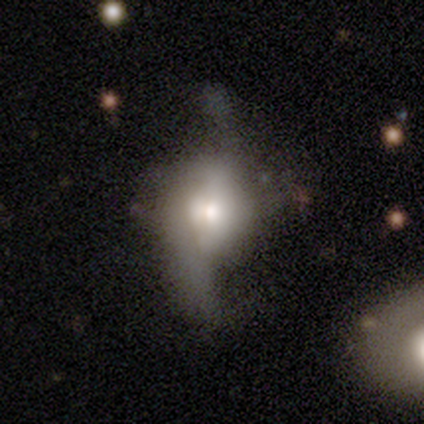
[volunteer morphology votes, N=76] This is likely a featured or disk galaxy (67%). It is clearly not viewed edge-on (80%). Bar: likely no (76%). Spiral arm pattern: likely yes (66%). Spiral arm count: likely 2 (74%). Spiral winding: clearly loose (93%). Central bulge: likely moderate (61%). Merging: marginally major disturbance (19%).